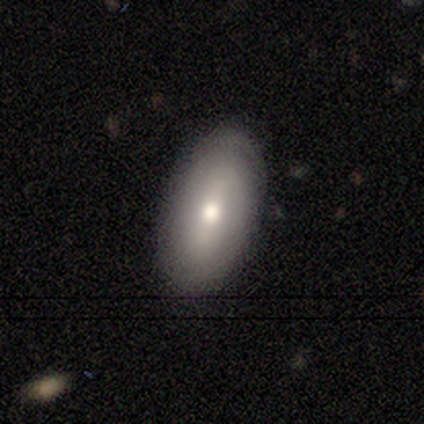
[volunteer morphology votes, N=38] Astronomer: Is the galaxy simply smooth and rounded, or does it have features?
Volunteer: smooth — 71%.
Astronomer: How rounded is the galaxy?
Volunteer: in between — 85%.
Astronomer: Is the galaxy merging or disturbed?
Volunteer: none — 86%.